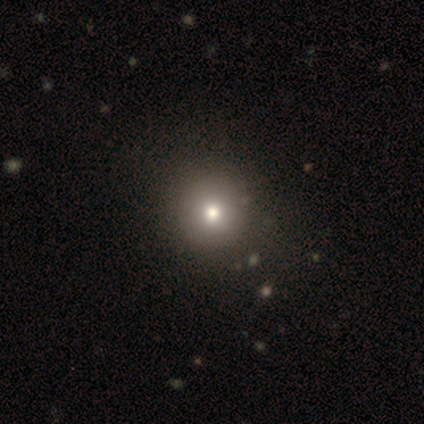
This appears to be a smooth galaxy with no disk features (100%) that is round (100%). Merging: none (100%).